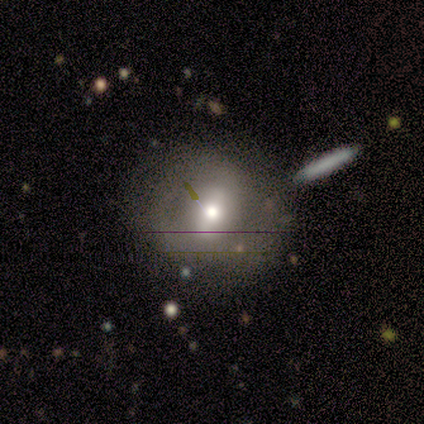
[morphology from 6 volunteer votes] Overall: smooth (50%, tied with featured or disk). How rounded: round (67%; in between 33%). Merging: none (67%; minor disturbance 33%).